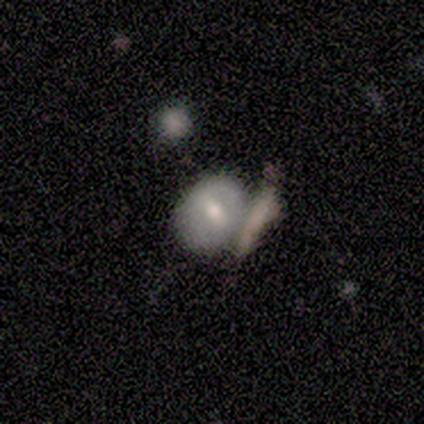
A smooth galaxy with no disk features (100%) that is round (60%). Merging: merger (60%).